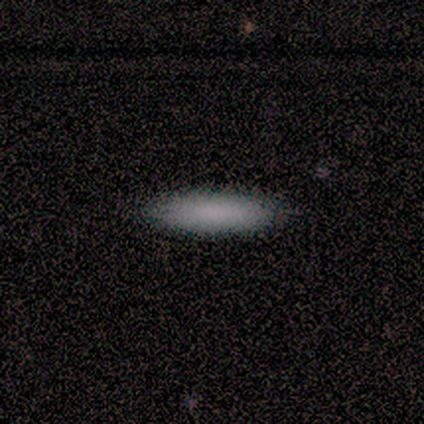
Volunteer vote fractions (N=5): smooth-or-featured: smooth: 100% | featured or disk: 0% | star or artifact: 0%
  how-rounded: cigar-shaped: 60% | in between: 40% | round: 0%
  merging: none: 100% | minor disturbance: 0% | major disturbance: 0% | merger: 0%